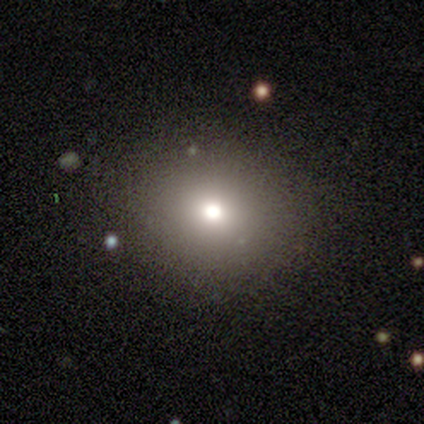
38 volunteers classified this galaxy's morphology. A smooth galaxy with no disk features (82%) that is round (87%). Merging: none (97%).